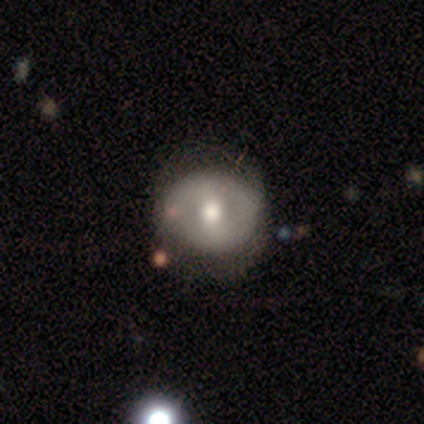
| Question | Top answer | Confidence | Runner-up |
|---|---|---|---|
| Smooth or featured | smooth | 51% | featured or disk (41%) |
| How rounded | round | 70% | in between (30%) |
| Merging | none | 72% | minor disturbance (17%) |